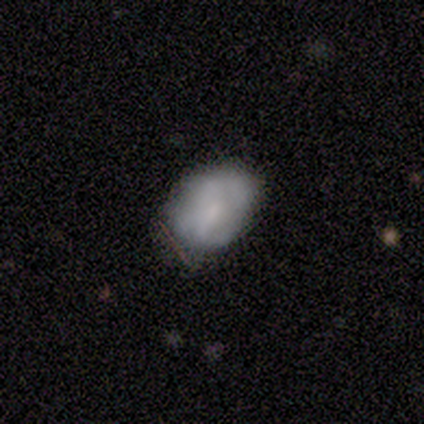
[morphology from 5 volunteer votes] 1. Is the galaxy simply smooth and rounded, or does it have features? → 80% smooth, 20% featured or disk, 0% star or artifact.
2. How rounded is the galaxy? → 75% in between, 25% round, 0% cigar-shaped.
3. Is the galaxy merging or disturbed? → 100% none, 0% minor disturbance, 0% major disturbance, 0% merger.